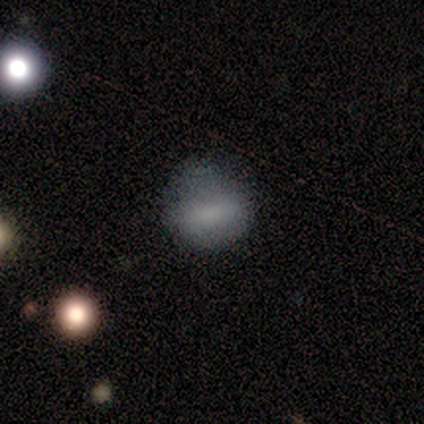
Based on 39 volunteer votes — smooth_or_featured: smooth (p=0.72) [alt: featured or disk p=0.15]
how_rounded: in between (p=0.57) [alt: round p=0.43]
merging: none (p=0.65) [alt: minor disturbance p=0.24]